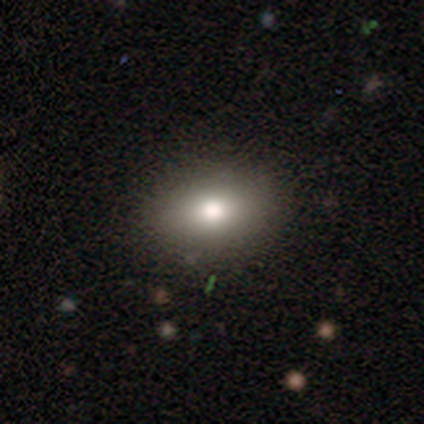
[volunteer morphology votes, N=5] A smooth galaxy with no disk features (100%) that is in between round and cigar-shaped (100%).

Vote fractions:
- Smooth or featured? smooth: 100% / featured or disk: 0% / star or artifact: 0%
- How rounded? in between: 100% / round: 0% / cigar-shaped: 0%
- Merging? none: 100% / minor disturbance: 0% / major disturbance: 0% / merger: 0%